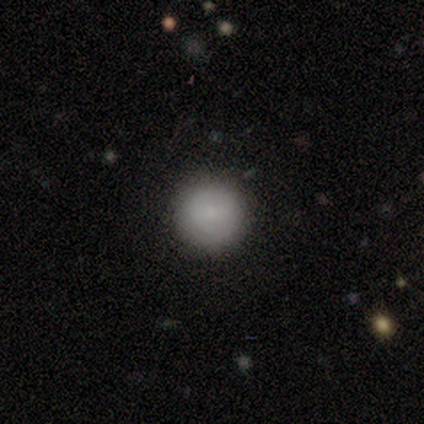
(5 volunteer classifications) Smooth or featured?
  - smooth: 80% *
  - featured or disk: 20%
  - star or artifact: 0%
How rounded?
  - round: 100% *
  - in between: 0%
  - cigar-shaped: 0%
Merging?
  - none: 100% *
  - minor disturbance: 0%
  - major disturbance: 0%
  - merger: 0%